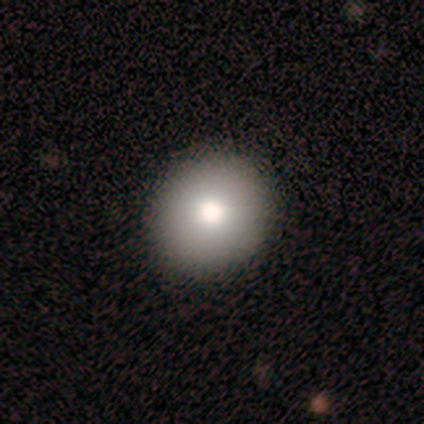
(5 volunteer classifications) A smooth galaxy with no disk features (80%) that is round (75%).

Vote fractions:
- Smooth or featured? smooth: 80% / featured or disk: 20% / star or artifact: 0%
- How rounded? round: 75% / in between: 25% / cigar-shaped: 0%
- Merging? none: 100% / minor disturbance: 0% / major disturbance: 0% / merger: 0%